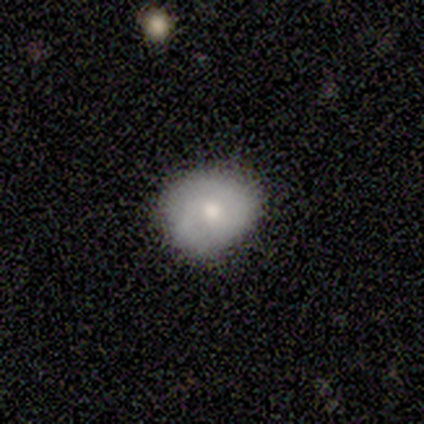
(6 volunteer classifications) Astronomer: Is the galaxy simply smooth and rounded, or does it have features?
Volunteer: smooth — 67%.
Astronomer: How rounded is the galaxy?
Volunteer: round — 75%.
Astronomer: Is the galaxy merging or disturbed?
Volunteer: none — 75%.